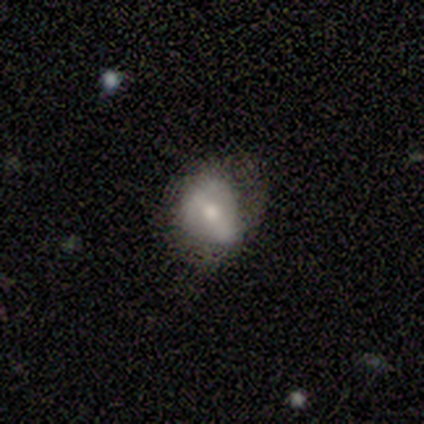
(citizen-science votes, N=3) smooth-or-featured: featured or disk: 67% | smooth: 33% | star or artifact: 0%
  disk-edge-on: yes: 50% (tied) | no: 50% (tied)
    edge-on-bulge: rounded: 100% | boxy: 0% | none: 0%
  merging: minor disturbance: 100% | none: 0% | major disturbance: 0% | merger: 0%